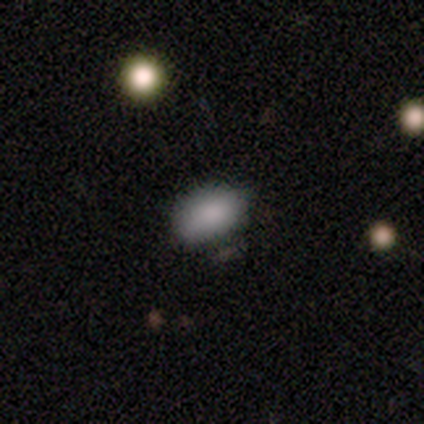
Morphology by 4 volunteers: Volunteers were most divided on "how rounded": in between: 75%, round: 25%, cigar-shaped: 0%. More confident: smooth or featured — smooth (100%); merging — none (100%).